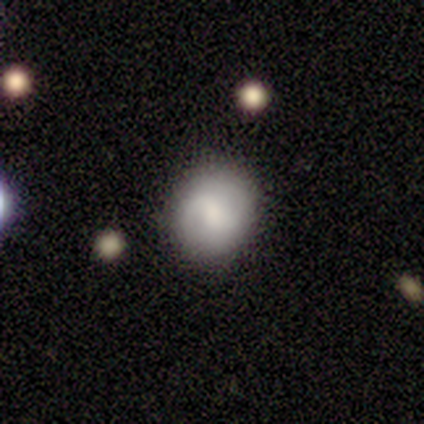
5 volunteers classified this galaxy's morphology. smooth_or_featured: featured or disk (p=0.60) [alt: smooth p=0.40]
disk_edge_on: no (p=1.00)
bar: weak (p=1.00)
has_spiral_arms: yes (p=1.00)
spiral_winding: medium (p=0.67) [alt: loose p=0.33]
spiral_arm_count: 2 (p=1.00)
bulge_size: moderate (p=0.67) [alt: small p=0.33]
merging: none (p=1.00)